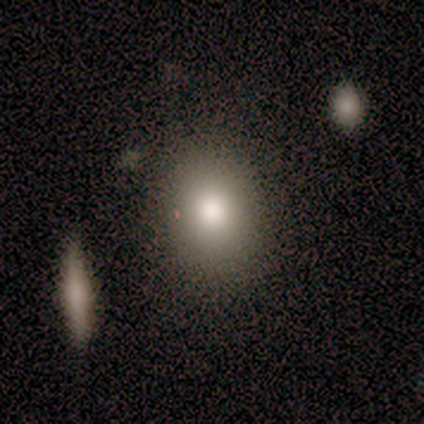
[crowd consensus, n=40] Overall: smooth (72%). How rounded: in between (62%; round 34%). Merging: none (91%).